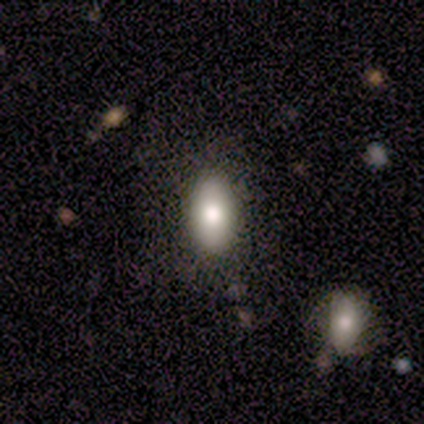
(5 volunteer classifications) This appears to be a smooth galaxy with no disk features (80%) that is in between round and cigar-shaped (100%). Merging: none (80%).